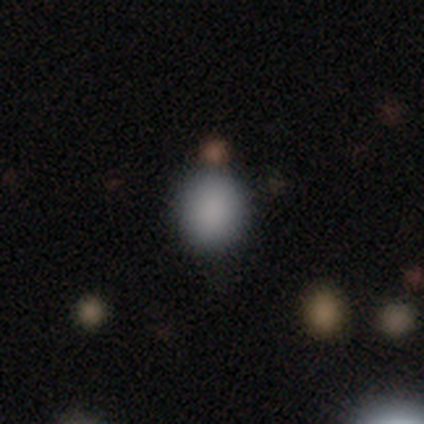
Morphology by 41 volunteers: smooth 80%, star or artifact 12%, featured or disk 7%. Down the decision tree: how rounded — round (61%); merging — none (78%).